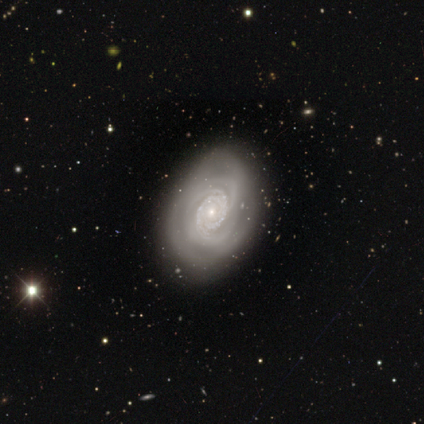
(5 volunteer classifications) Smooth or featured: featured or disk — 100%
Edge-on disk: no — 100%
Bar: no — 100%
Spiral arms: yes — 100%
Spiral winding: tight — 100%
Spiral arm count: can't tell — 40% (2 — 20%)
Bulge size: small — 80% (moderate — 20%)
Merging: none — 100%